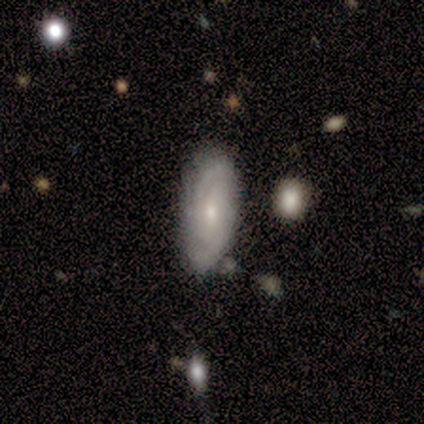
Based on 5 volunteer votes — Overall: featured or disk (60%; smooth 40%). Edge-on disk: no (100%). Bar: no (67%; weak 33%). Spiral arms: yes (67%; no 33%). Spiral arm count: 2 (100%). Spiral winding: tight (50%, tied with loose). Bulge size: moderate (67%; small 33%). Merging: none (80%).